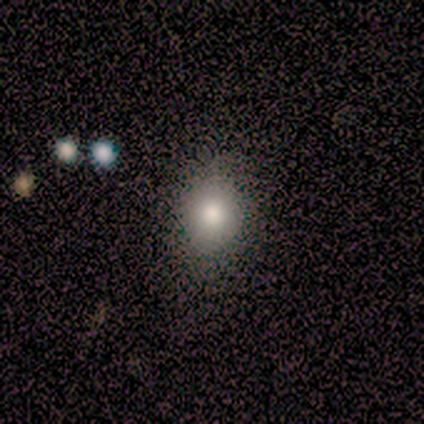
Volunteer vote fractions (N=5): Smooth or featured? 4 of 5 (80%) said smooth. How rounded? 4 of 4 (100%) said in between. Merging? 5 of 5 (100%) said none.